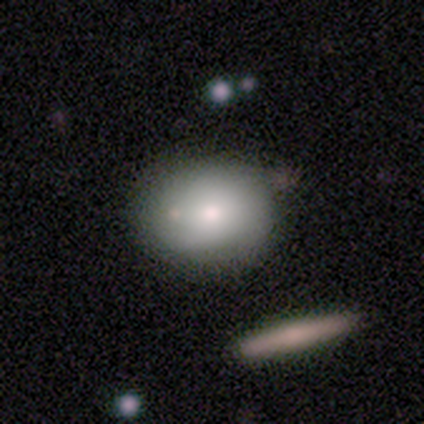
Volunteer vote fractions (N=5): Q: Smooth or featured?
A: smooth (100%)
Q: How rounded?
A: round (80%); runner-up: in between (20%)
Q: Merging?
A: none (60%); runner-up: minor disturbance (40%)